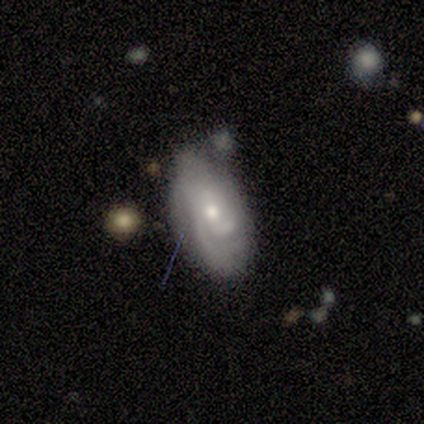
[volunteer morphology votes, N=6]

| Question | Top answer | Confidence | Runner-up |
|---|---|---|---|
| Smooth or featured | smooth | 50% | tied: featured or disk (50%) |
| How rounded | in between | 100% | — |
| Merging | minor disturbance | 50% | none (33%) |